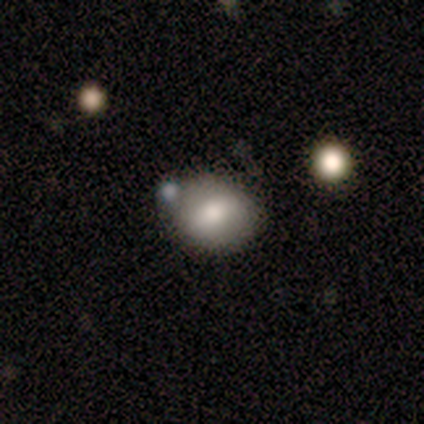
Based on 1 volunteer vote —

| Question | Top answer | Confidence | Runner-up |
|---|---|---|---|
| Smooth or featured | smooth | 100% | — |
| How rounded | in between | 100% | — |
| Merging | none | 100% | — |